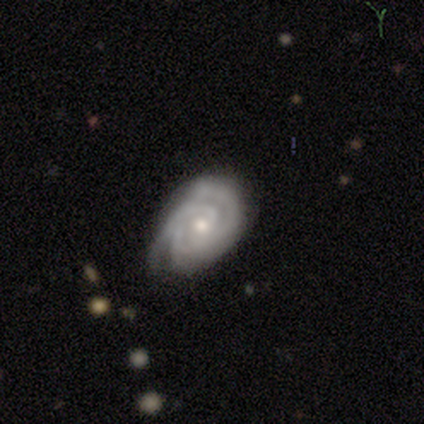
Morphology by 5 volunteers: Q: Smooth or featured?
A: featured or disk (100%)
Q: Edge-on disk?
A: no (100%)
Q: Bar?
A: no (60%); runner-up: weak (40%)
Q: Spiral arms?
A: yes (100%)
Q: Spiral winding?
A: tight (80%); runner-up: medium (20%)
Q: Spiral arm count?
A: 3 (60%); runner-up: 1 (20%)
Q: Bulge size?
A: small (100%)
Q: Merging?
A: minor disturbance (60%); runner-up: none (40%)